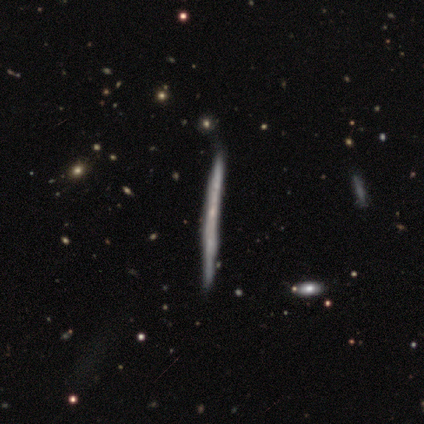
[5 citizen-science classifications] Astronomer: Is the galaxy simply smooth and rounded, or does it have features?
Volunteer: featured or disk — 80%.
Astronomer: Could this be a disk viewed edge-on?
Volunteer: yes — 100%.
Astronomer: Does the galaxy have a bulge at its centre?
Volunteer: none — 100%.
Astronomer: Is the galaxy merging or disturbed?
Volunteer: none — 60%.